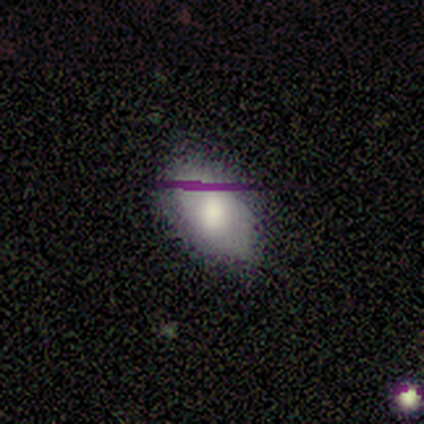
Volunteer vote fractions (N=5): smooth_or_featured: smooth (p=1.00)
how_rounded: in between (p=1.00)
merging: minor disturbance (p=0.60) [alt: none p=0.40]